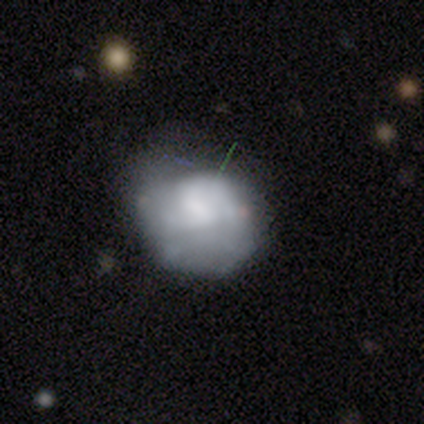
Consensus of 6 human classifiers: This appears to be a smooth galaxy with no disk features (67%) that is round (50%, tied with in between). Merging: minor disturbance (50%).